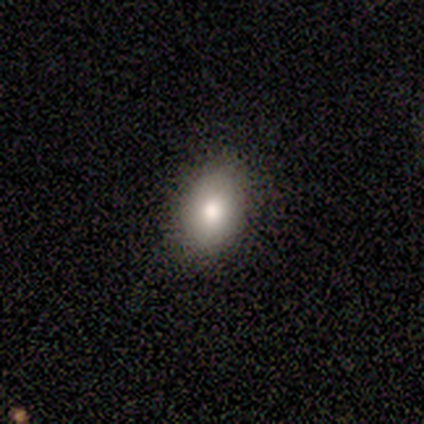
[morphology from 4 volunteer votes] Smooth or featured? 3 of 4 (75%) said featured or disk. Edge-on disk? 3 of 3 (100%) said no. Bar? 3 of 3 (100%) said no. Spiral arms? 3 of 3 (100%) said no. Bulge size? 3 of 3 (100%) said moderate. Merging? 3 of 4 (75%) said none.